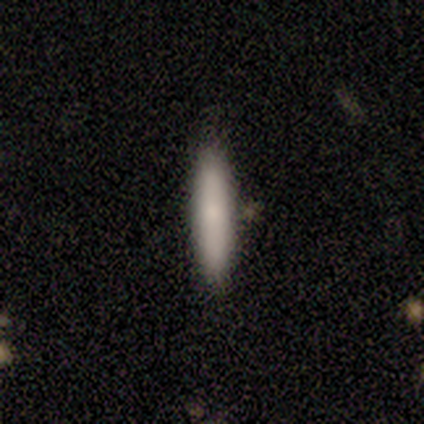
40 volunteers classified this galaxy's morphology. Overall: smooth (85%). How rounded: cigar-shaped (91%). Merging: none (90%).